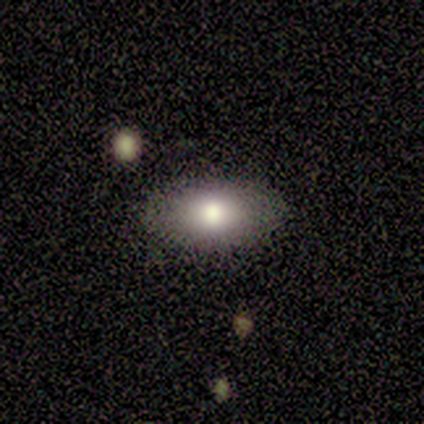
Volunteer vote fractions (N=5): A smooth galaxy with no disk features (60%) that is in between round and cigar-shaped (100%).

Vote fractions:
- Smooth or featured? smooth: 60% / featured or disk: 20% / star or artifact: 20%
- How rounded? in between: 100% / round: 0% / cigar-shaped: 0%
- Merging? none: 100% / minor disturbance: 0% / major disturbance: 0% / merger: 0%